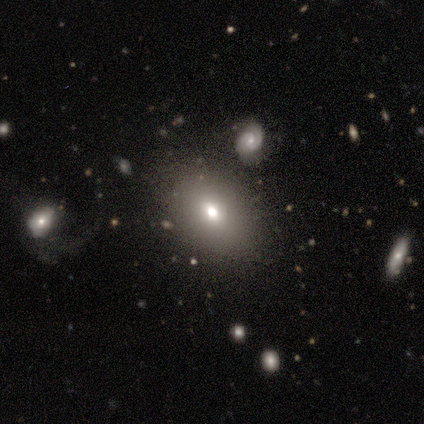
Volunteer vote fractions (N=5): smooth 40% (tied), star or artifact 40% (tied), featured or disk 20%. Down the decision tree: how rounded — in between (100%); merging — none (100%).